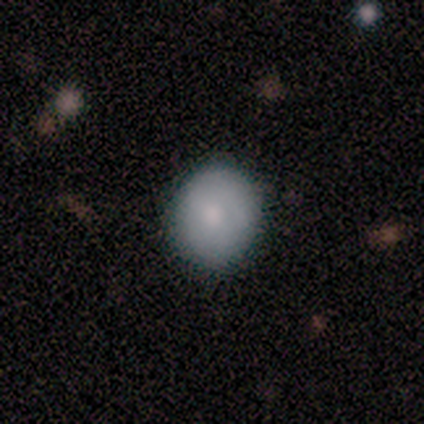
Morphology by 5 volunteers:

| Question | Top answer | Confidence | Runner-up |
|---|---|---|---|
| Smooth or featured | smooth | 100% | — |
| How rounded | round | 100% | — |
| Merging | none | 80% | minor disturbance (20%) |